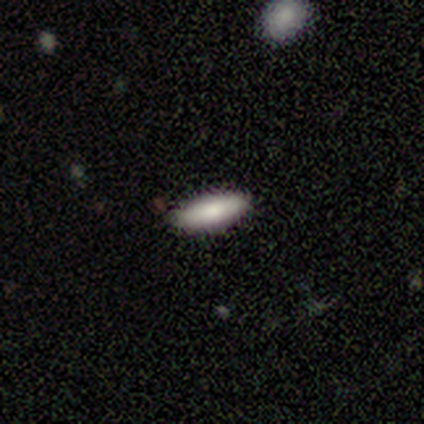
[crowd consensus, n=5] Smooth or featured: smooth — 100%
How rounded: in between — 80% (cigar-shaped — 20%)
Merging: none — 100%